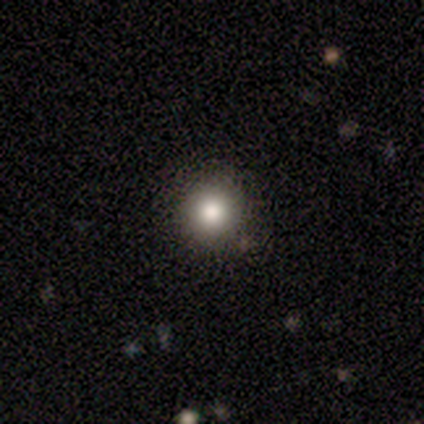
Smooth or featured?
  - smooth: 82% *
  - star or artifact: 15%
  - featured or disk: 3%
How rounded?
  - round: 97% *
  - in between: 3%
  - cigar-shaped: 0%
Merging?
  - none: 91% *
  - minor disturbance: 9%
  - major disturbance: 0%
  - merger: 0%